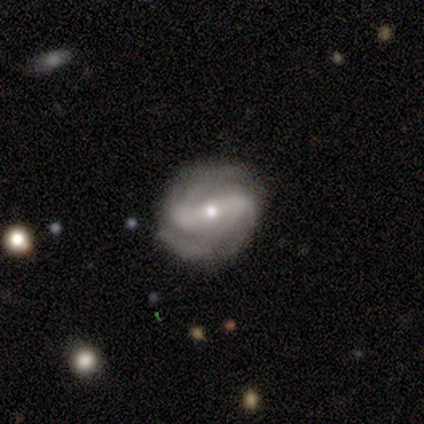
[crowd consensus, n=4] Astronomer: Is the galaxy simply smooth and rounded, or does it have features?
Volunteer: featured or disk — 100%.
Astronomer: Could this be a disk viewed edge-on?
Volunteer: no — 100%.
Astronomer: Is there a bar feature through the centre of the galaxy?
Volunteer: weak — 50%.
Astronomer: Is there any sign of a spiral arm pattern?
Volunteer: yes — 100%.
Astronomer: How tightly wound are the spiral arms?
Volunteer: tight — 50%, tied with loose at 50%.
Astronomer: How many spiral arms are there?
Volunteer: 4 — 50%.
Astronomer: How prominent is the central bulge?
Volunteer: moderate — 75%.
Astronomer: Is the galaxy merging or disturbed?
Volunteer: none — 100%.